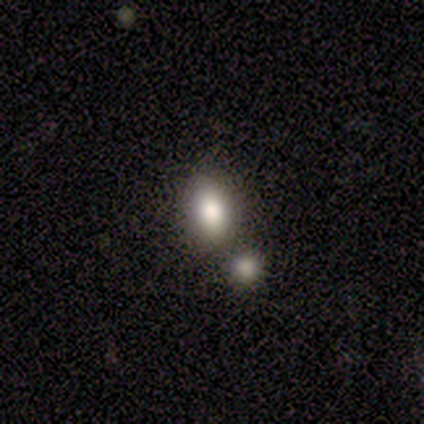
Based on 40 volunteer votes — Smooth or featured?
  - smooth: 72% *
  - star or artifact: 15%
  - featured or disk: 12%
How rounded?
  - in between: 79% *
  - round: 17%
  - cigar-shaped: 3%
Merging?
  - none: 53% *
  - merger: 41%
  - minor disturbance: 6%
  - major disturbance: 0%